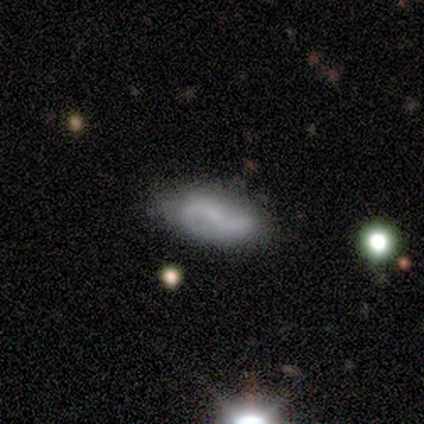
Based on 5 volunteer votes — A featured or disk galaxy (80%) with no bar (50%), 2 (50%, tied with can't tell) loose (100%) spiral arms (50%, tied with no) and no central bulge (75%). Merging: none (80%).